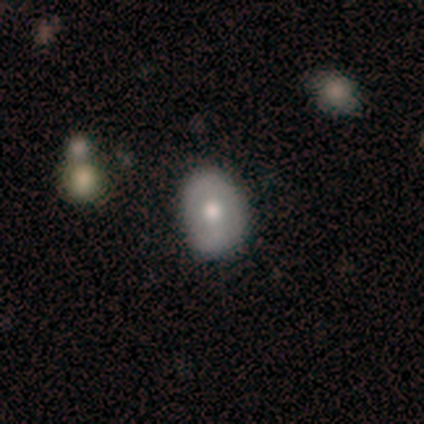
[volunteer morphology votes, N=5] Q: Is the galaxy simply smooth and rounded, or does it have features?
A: smooth — 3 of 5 (60%).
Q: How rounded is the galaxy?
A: in between — 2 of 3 (67%).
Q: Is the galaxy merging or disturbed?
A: none — 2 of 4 (50%, tied with minor disturbance).